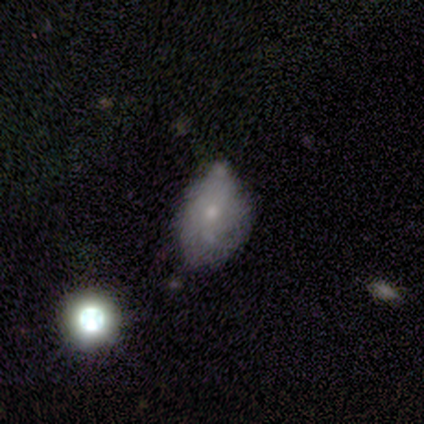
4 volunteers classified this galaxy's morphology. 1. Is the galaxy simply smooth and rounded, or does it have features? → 75% featured or disk, 25% smooth, 0% star or artifact.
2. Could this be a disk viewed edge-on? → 100% no, 0% yes.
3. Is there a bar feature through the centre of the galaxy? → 100% no, 0% strong, 0% weak.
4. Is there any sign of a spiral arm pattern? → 100% no, 0% yes.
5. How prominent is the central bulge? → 100% small, 0% dominant, 0% large, 0% moderate, 0% none.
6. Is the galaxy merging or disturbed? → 75% minor disturbance, 25% merger, 0% none, 0% major disturbance.